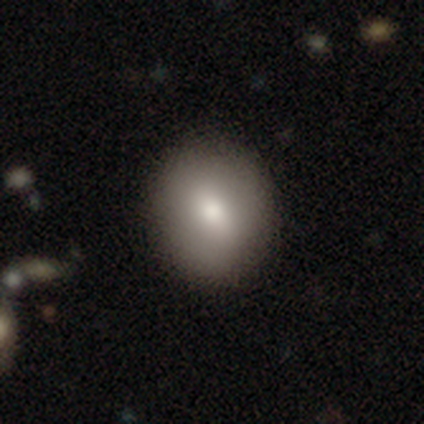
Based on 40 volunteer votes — This appears to be a smooth galaxy with no disk features (82%) that is round (67%). Merging: none (66%).